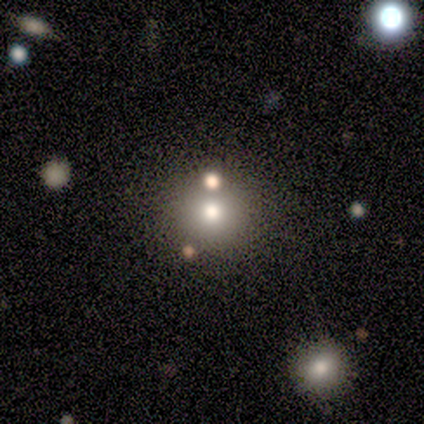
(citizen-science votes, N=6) A smooth galaxy with no disk features (100%) that is round (100%).

Vote fractions:
- Smooth or featured? smooth: 100% / featured or disk: 0% / star or artifact: 0%
- How rounded? round: 100% / in between: 0% / cigar-shaped: 0%
- Merging? none: 83% / minor disturbance: 17% / major disturbance: 0% / merger: 0%